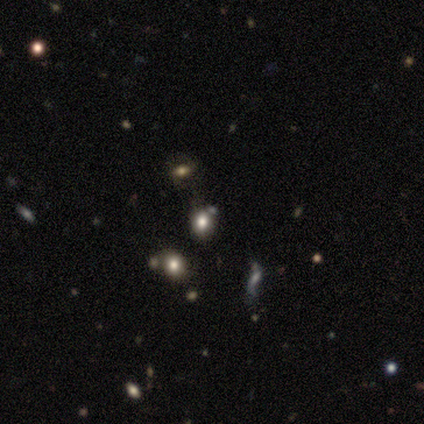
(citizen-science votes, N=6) This appears to be a smooth galaxy with no disk features (50%, tied with star or artifact) that is round (100%). Merging: none (33%, tied with minor disturbance and merger).